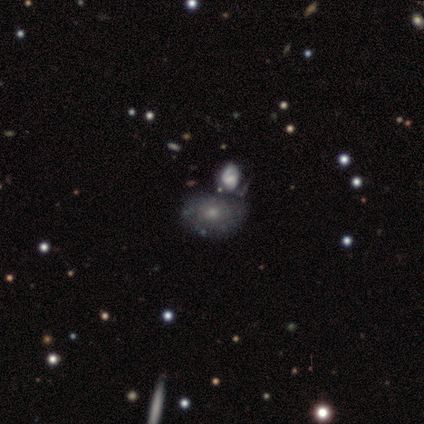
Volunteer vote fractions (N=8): A featured or disk galaxy (62%) with no bar (100%), no spiral arms (100%) and a moderate central bulge (50%).

Vote fractions:
- Smooth or featured? featured or disk: 62% / smooth: 25% / star or artifact: 12%
- Edge-on disk? no: 80% / yes: 20%
- Bar? no: 100% / strong: 0% / weak: 0%
- Spiral arms? no: 100% / yes: 0%
- Bulge size? moderate: 50% / small: 25% / none: 25% / dominant: 0% / large: 0%
- Merging? minor disturbance: 57% / none: 43% / major disturbance: 0% / merger: 0%